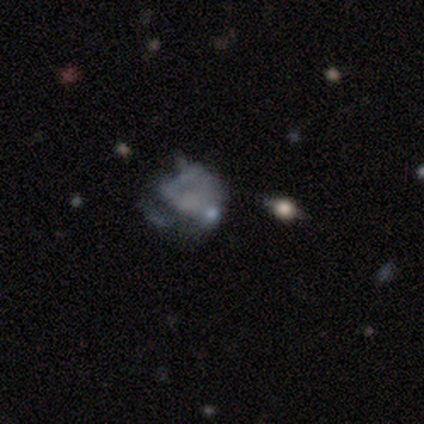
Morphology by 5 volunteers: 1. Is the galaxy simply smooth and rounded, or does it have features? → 60% smooth, 20% featured or disk, 20% star or artifact.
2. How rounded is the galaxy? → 67% in between, 33% round, 0% cigar-shaped.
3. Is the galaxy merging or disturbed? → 75% major disturbance, 25% none, 0% minor disturbance, 0% merger.